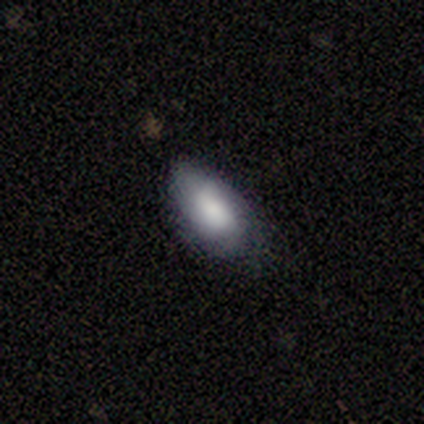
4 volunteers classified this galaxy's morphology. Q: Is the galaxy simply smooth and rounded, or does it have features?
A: smooth — 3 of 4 (75%).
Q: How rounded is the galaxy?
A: in between — 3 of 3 (100%).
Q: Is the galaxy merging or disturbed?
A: none — 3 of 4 (75%).